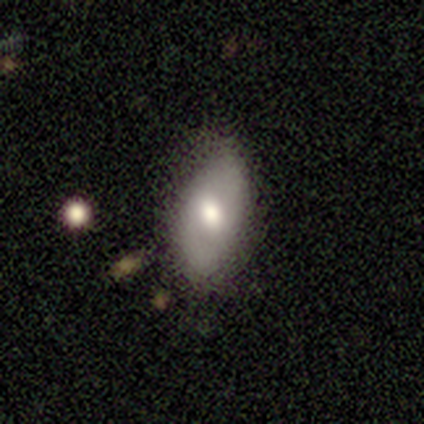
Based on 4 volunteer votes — Morphology: type=smooth (50%, tied with featured or disk); roundness=in between (100%); merging=none (50%, tied with minor disturbance).